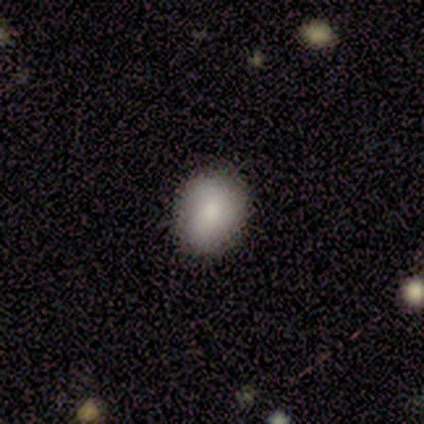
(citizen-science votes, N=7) smooth 57%, star or artifact 29%, featured or disk 14%. Down the decision tree: how rounded — round (75%); merging — none (100%).